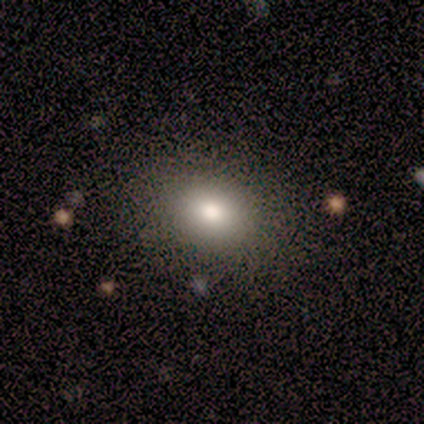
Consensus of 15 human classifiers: Volunteers were most divided on "how rounded": in between: 67%, round: 33%, cigar-shaped: 0%. More confident: merging — none (92%); smooth or featured — smooth (80%).